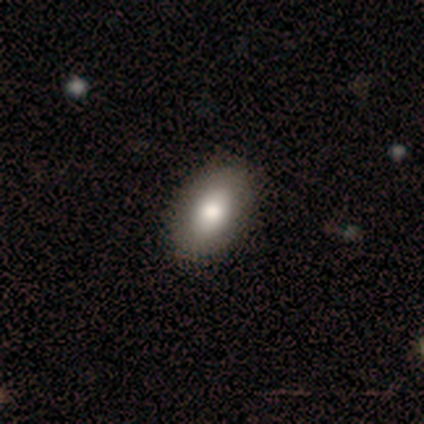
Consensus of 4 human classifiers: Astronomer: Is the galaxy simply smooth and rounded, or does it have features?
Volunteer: smooth — 75%.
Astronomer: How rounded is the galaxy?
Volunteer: round — 67%.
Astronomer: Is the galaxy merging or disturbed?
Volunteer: none — 75%.